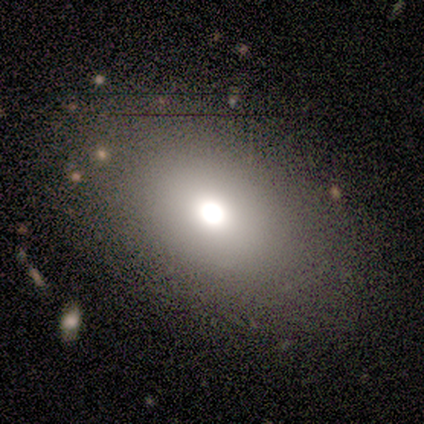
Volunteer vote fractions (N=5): Volunteers were most divided on "smooth or featured": smooth: 60%, star or artifact: 40%, featured or disk: 0%. More confident: how rounded — in between (100%); merging — none (100%).